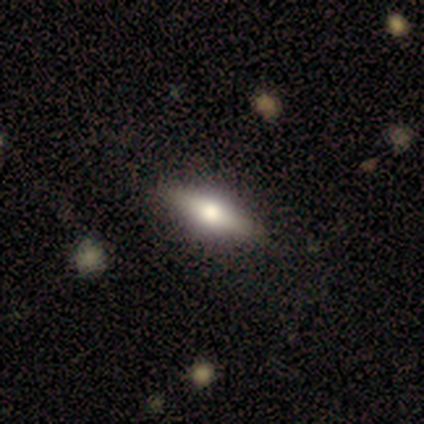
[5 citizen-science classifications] Q: Smooth or featured?
A: smooth (100%)
Q: How rounded?
A: in between (60%); runner-up: cigar-shaped (40%)
Q: Merging?
A: none (100%)